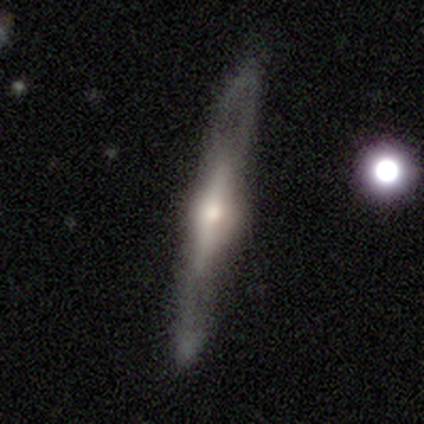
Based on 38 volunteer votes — A featured or disk galaxy (76%) viewed edge-on (83%) with a rounded central bulge (92%). Merging: none (87%).